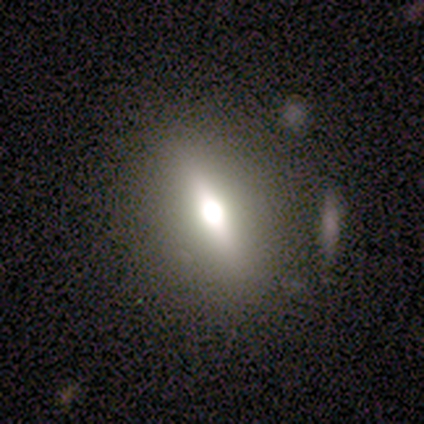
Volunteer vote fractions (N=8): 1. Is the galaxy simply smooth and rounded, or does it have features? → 75% featured or disk, 25% smooth, 0% star or artifact.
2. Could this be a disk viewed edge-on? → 67% yes, 33% no.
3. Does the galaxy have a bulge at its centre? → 100% rounded, 0% boxy, 0% none.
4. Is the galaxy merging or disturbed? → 75% none, 12% minor disturbance, 12% major disturbance, 0% merger.